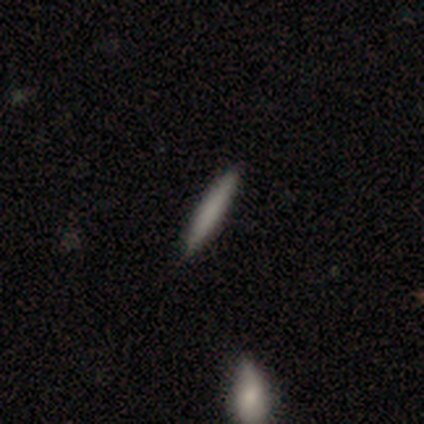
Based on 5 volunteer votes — This appears to be a smooth galaxy with no disk features (100%) that is cigar-shaped (100%). Merging: none (80%).